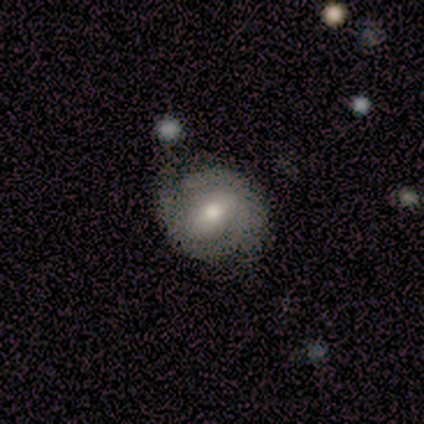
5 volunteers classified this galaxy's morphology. smooth_or_featured: smooth (p=0.60) [alt: featured or disk p=0.40]
how_rounded: round (p=1.00)
merging: none (p=0.80) [alt: minor disturbance p=0.20]